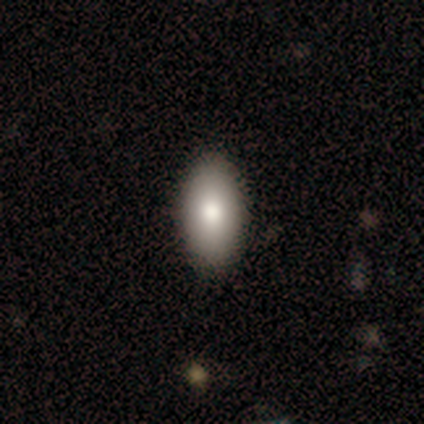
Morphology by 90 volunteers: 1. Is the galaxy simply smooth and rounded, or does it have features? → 90% smooth, 7% star or artifact, 3% featured or disk.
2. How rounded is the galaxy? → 88% in between, 11% cigar-shaped, 1% round.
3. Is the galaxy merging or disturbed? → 89% none, 10% minor disturbance, 1% major disturbance, 0% merger.